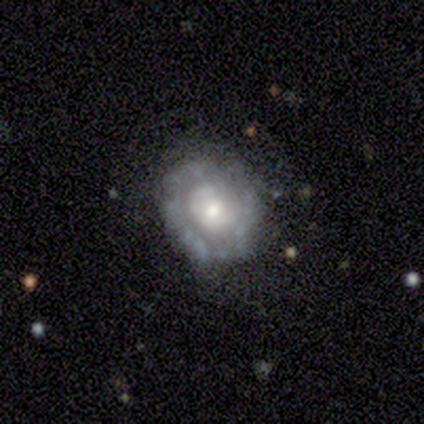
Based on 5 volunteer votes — This appears to be a featured or disk galaxy (60%) with no bar (100%), no spiral arms (100%) and a small central bulge (67%). Merging: none (60%).